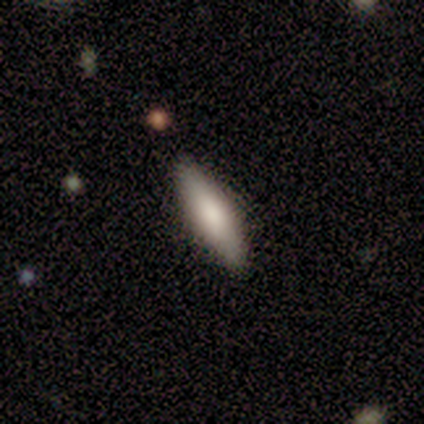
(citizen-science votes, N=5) smooth 80%, featured or disk 20%, star or artifact 0%. Down the decision tree: how rounded — in between (50%, tied with cigar-shaped); merging — none (100%).